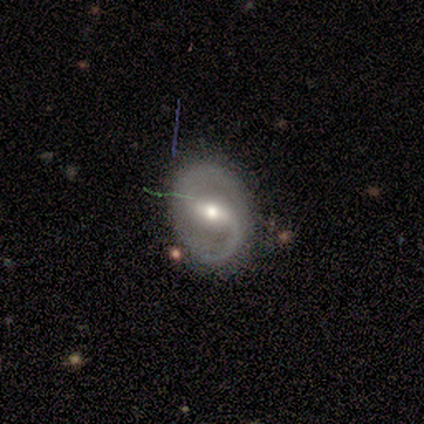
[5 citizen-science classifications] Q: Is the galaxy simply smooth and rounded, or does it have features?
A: featured or disk — 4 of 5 (80%).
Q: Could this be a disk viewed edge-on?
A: no — 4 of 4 (100%).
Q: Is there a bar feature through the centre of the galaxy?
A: weak — 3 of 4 (75%).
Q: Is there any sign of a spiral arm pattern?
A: yes — 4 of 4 (100%).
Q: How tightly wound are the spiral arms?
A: medium — 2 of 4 (50%, tied with loose).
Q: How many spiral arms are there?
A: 2 — 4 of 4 (100%).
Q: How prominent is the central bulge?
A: moderate — 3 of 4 (75%).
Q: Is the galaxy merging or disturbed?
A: none — 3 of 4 (75%).